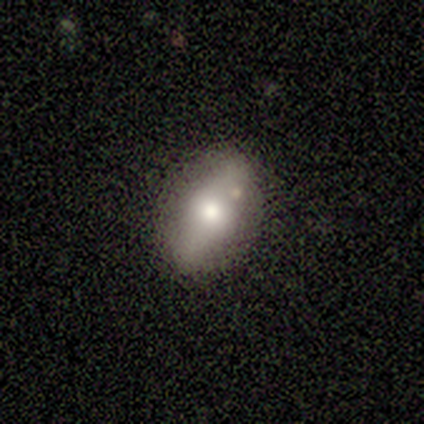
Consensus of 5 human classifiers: Morphology: type=smooth (60%); roundness=in between (100%); merging=none (75%).